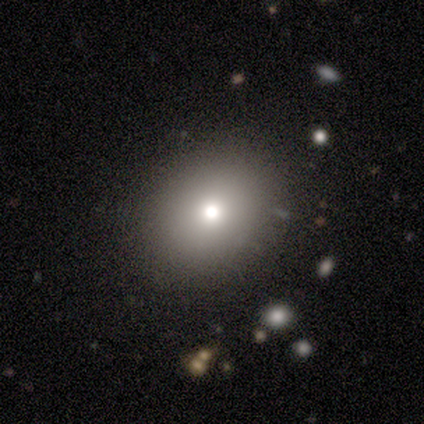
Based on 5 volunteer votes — This is likely a smooth galaxy (60%). How rounded: likely round (67%). Merging: clearly none (100%).